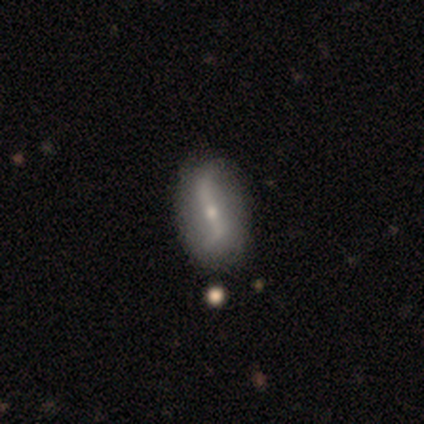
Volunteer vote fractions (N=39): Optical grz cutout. It shows a featured or disk galaxy (74%) with a strong bar (67%), 2 (92%) loose (96%) spiral arms (89%) and a small central bulge (52%). Merging: none (67%).